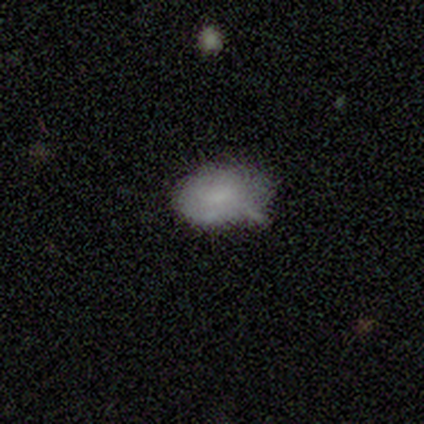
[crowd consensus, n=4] featured or disk 75%, smooth 25%, star or artifact 0%. Down the decision tree: edge-on disk — no (100%); bar — no (67%); spiral arms — no (67%); bulge size — moderate (33%, tied with small and none); merging — minor disturbance (75%).